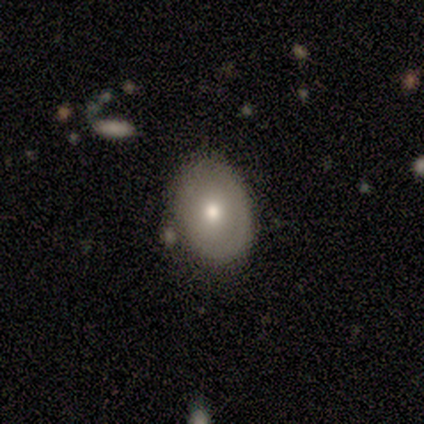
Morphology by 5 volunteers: smooth_or_featured: smooth (p=0.80) [alt: featured or disk p=0.20]
how_rounded: in between (p=0.75) [alt: round p=0.25]
merging: minor disturbance (p=0.60) [alt: none p=0.40]